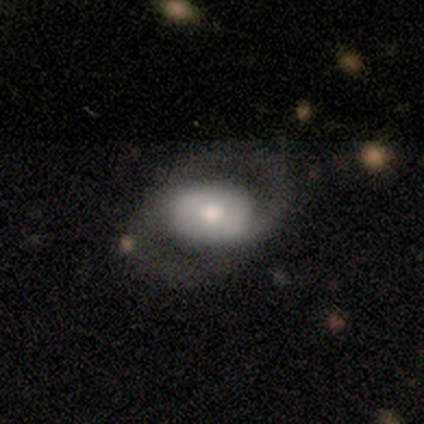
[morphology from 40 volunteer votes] smooth-or-featured: featured or disk: 70% | smooth: 22% | star or artifact: 8%
  disk-edge-on: no: 100% | yes: 0%
    bar: no: 50% | weak: 39% | strong: 11%
    has-spiral-arms: yes: 82% | no: 18%
      spiral-winding: medium: 65% | tight: 17% | loose: 17%
      spiral-arm-count: 2: 83% | 1: 9% | 3: 4% | can't tell: 4% | 4: 0% | more than 4: 0%
    bulge-size: moderate: 61% | small: 21% | dominant: 14% | large: 4% | none: 0%
  merging: none: 70% | major disturbance: 22% | minor disturbance: 5% | merger: 3%